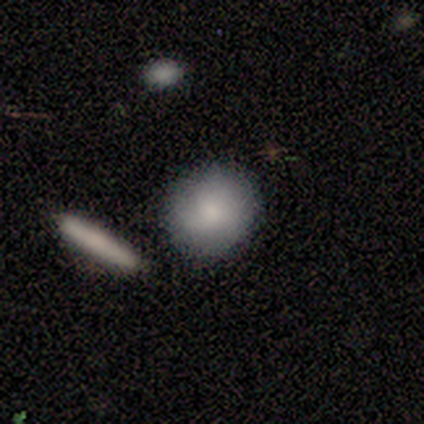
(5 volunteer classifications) smooth-or-featured: smooth: 80% | featured or disk: 20% | star or artifact: 0%
  how-rounded: round: 100% | in between: 0% | cigar-shaped: 0%
  merging: none: 80% | major disturbance: 20% | minor disturbance: 0% | merger: 0%